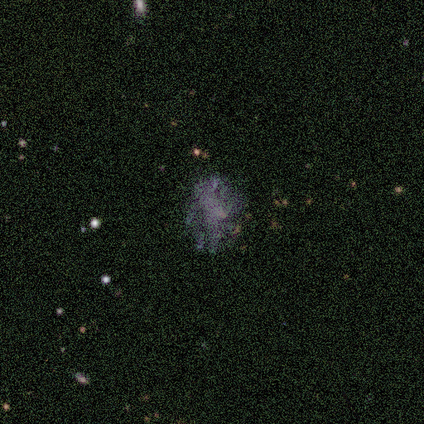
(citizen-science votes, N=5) Volunteers were most divided on "merging": none: 60%, minor disturbance: 40%, major disturbance: 0%, merger: 0%. More confident: edge-on disk — no (100%); spiral arms — no (100%); smooth or featured — featured or disk (80%); bar — no (75%); bulge size — none (75%).